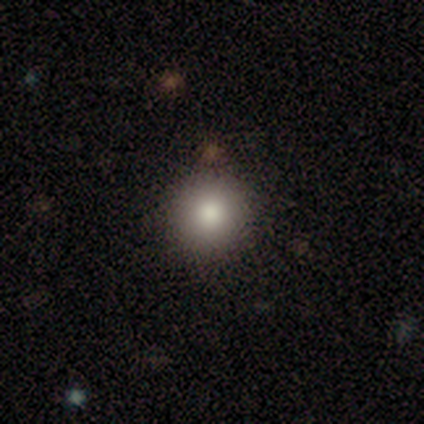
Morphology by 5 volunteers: Smooth or featured? 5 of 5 (100%) said smooth. How rounded? 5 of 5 (100%) said round. Merging? 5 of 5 (100%) said none.